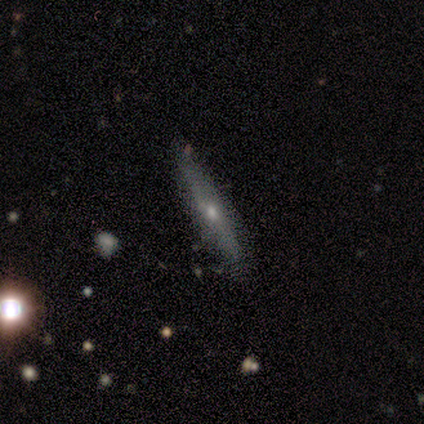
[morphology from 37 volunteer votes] Overall: featured or disk (54%; smooth 38%). Edge-on disk: yes (75%). Edge-on bulge: rounded (80%). Merging: none (74%).